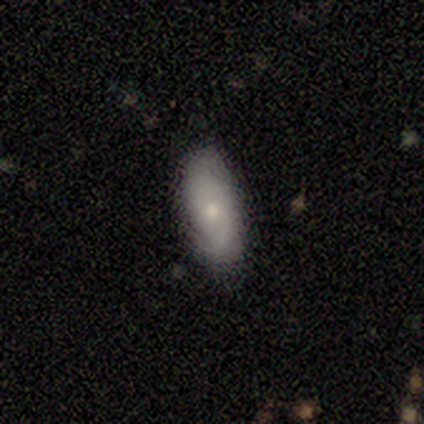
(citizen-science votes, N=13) Smooth or featured? 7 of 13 (54%) said featured or disk. Edge-on disk? 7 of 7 (100%) said no. Bar? 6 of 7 (86%) said no. Spiral arms? 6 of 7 (86%) said yes. Spiral winding? 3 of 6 (50%) said tight. Spiral arm count? 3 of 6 (50%) said can't tell. Bulge size? 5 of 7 (71%) said moderate. Merging? 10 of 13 (77%) said none.